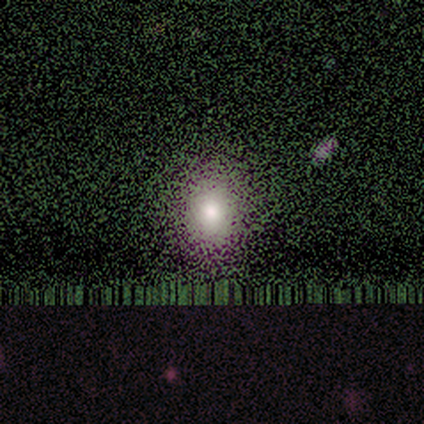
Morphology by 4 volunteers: Smooth or featured: star or artifact — 75% (smooth — 25%)